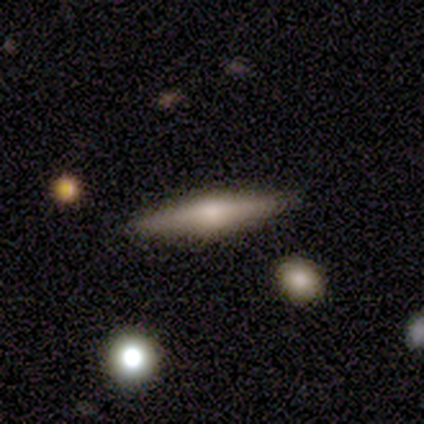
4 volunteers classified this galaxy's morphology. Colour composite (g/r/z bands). It shows a featured or disk galaxy (75%) viewed edge-on (100%) with a rounded central bulge (100%). Merging: none (100%).